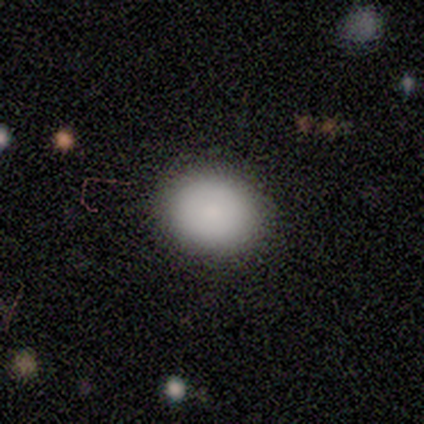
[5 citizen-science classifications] Volunteers were most divided on "how rounded": in between: 80%, round: 20%, cigar-shaped: 0%. More confident: smooth or featured — smooth (100%); merging — none (100%).